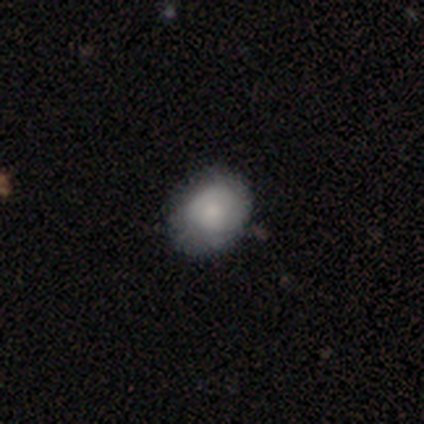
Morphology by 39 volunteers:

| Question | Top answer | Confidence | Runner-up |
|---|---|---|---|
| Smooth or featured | smooth | 67% | featured or disk (28%) |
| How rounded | round | 62% | in between (38%) |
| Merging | none | 78% | minor disturbance (16%) |